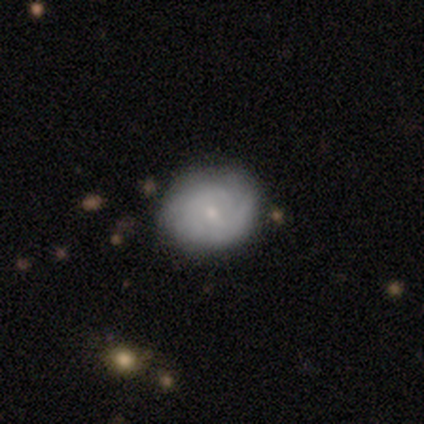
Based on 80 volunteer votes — This is possibly a featured or disk galaxy (50%). It is clearly not viewed edge-on (98%). Bar: likely no (77%). Spiral arm pattern: clearly yes (82%). Spiral arm count: possibly can't tell (50%). Spiral winding: likely tight (72%). Central bulge: likely small (77%). Merging: marginally none (41%).